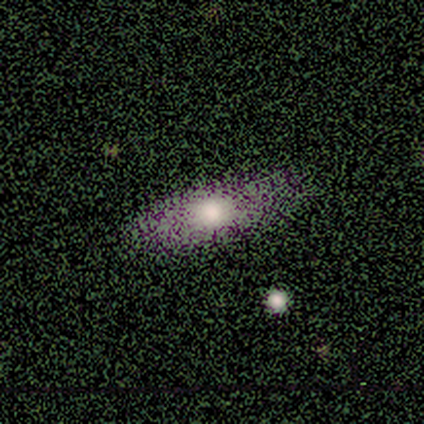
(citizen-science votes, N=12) Smooth or featured?
  - smooth: 67% *
  - featured or disk: 25%
  - star or artifact: 8%
How rounded?
  - in between: 62% *
  - cigar-shaped: 38%
  - round: 0%
Merging?
  - none: 91% *
  - minor disturbance: 9%
  - major disturbance: 0%
  - merger: 0%